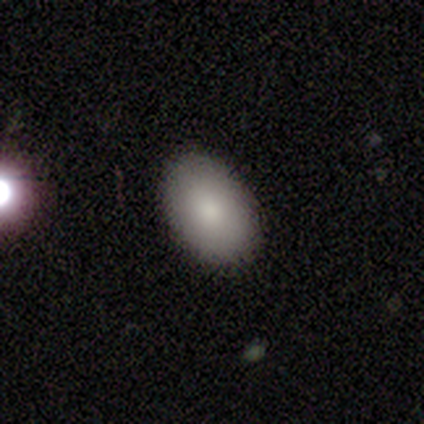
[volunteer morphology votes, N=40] Overall: smooth (90%). How rounded: in between (92%). Merging: none (69%).